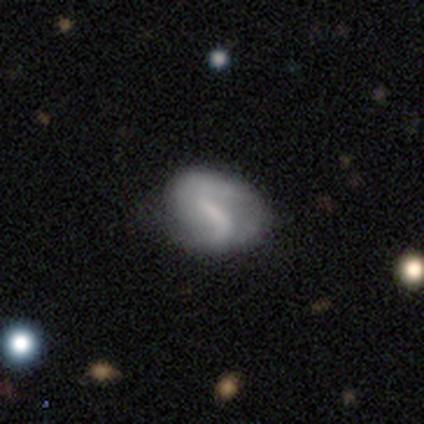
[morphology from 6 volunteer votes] Smooth or featured?
  - featured or disk: 100% *
  - smooth: 0%
  - star or artifact: 0%
Edge-on disk?
  - no: 100% *
  - yes: 0%
Bar?
  - strong: 50% * (tied)
  - weak: 50% * (tied)
  - no: 0%
Spiral arms?
  - yes: 67% *
  - no: 33%
Spiral winding?
  - medium: 50% * (tied)
  - loose: 50% * (tied)
  - tight: 0%
Spiral arm count?
  - 2: 100% *
  - 1: 0%
  - 3: 0%
  - 4: 0%
  - more than 4: 0%
  - can't tell: 0%
Bulge size?
  - moderate: 50% *
  - none: 33%
  - small: 17%
  - dominant: 0%
  - large: 0%
Merging?
  - none: 50% *
  - minor disturbance: 33%
  - major disturbance: 17%
  - merger: 0%